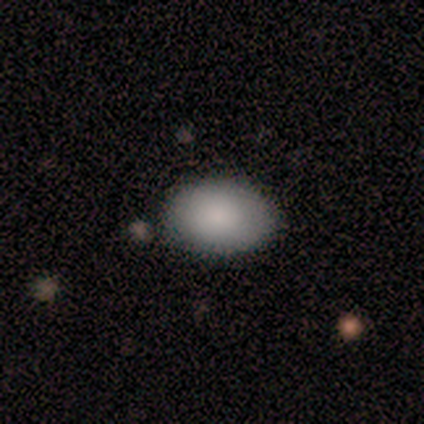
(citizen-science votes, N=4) Smooth or featured: smooth — 100%
How rounded: in between — 75% (round — 25%)
Merging: none — 75% (minor disturbance — 25%)